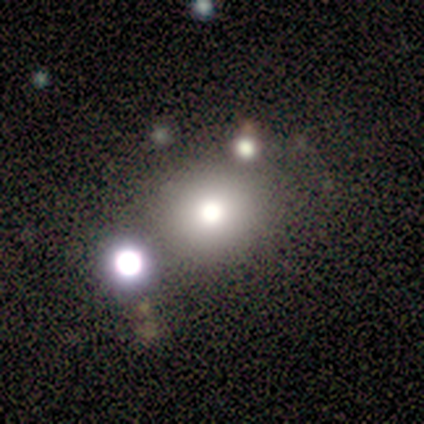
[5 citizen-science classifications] smooth-or-featured: smooth: 80% | featured or disk: 20% | star or artifact: 0%
  how-rounded: round: 75% | in between: 25% | cigar-shaped: 0%
  merging: none: 80% | merger: 20% | minor disturbance: 0% | major disturbance: 0%